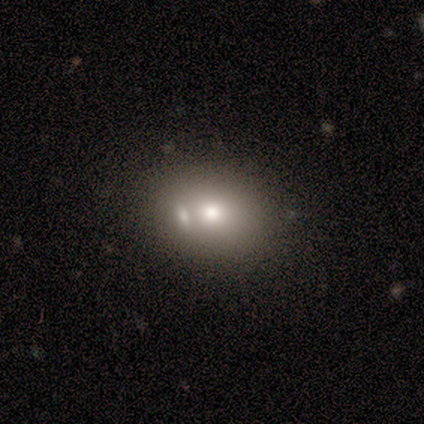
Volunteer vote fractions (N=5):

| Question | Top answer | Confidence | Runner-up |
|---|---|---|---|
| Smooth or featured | smooth | 60% | featured or disk (20%) |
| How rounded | in between | 100% | — |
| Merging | none | 50% | tied: merger (50%) |